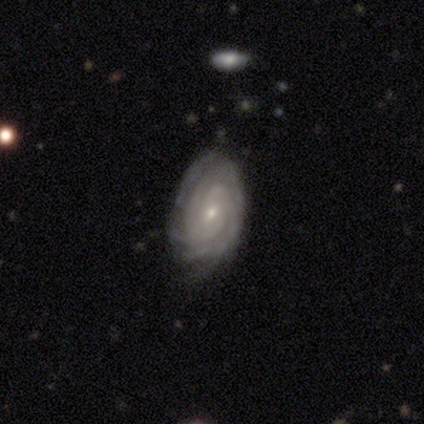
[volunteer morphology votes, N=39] Smooth or featured? featured or disk (85%)
Edge-on disk? no (94%)
Bar? no (52%)
Spiral arms? yes (97%)
Spiral winding? tight (83%)
Spiral arm count? 3 (30%)
Bulge size? small (94%)
Merging? none (62%)